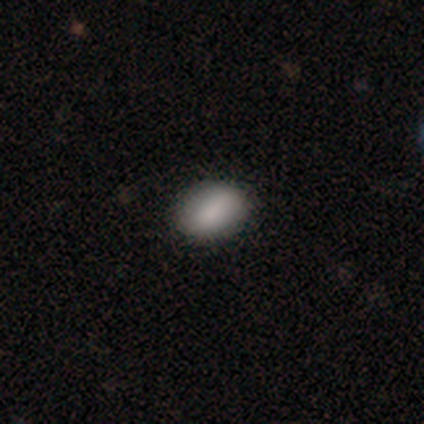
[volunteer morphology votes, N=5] smooth-or-featured: smooth: 80% | star or artifact: 20% | featured or disk: 0%
  how-rounded: in between: 75% | round: 25% | cigar-shaped: 0%
  merging: none: 100% | minor disturbance: 0% | major disturbance: 0% | merger: 0%